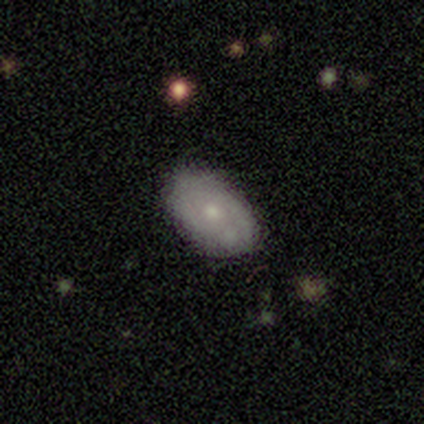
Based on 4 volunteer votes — This is clearly a smooth galaxy (100%). How rounded: clearly in between (100%). Merging: possibly none (50%, tied with minor disturbance).